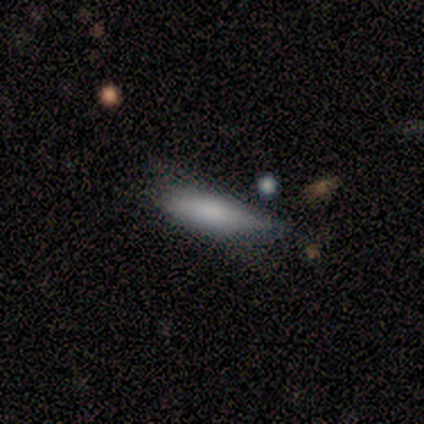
This appears to be a featured or disk galaxy (60%) viewed edge-on (100%) with a rounded central bulge (100%). Merging: none (40%).